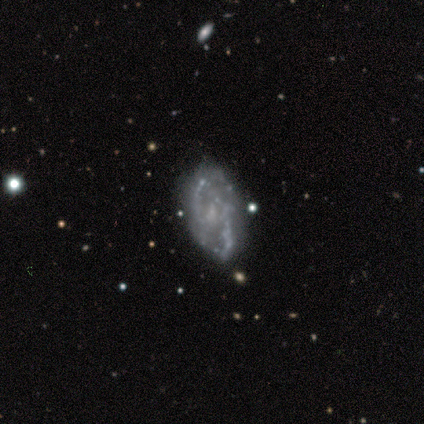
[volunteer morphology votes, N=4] smooth-or-featured: featured or disk: 100% | smooth: 0% | star or artifact: 0%
  disk-edge-on: no: 100% | yes: 0%
    bar: weak: 50% (tied) | no: 50% (tied) | strong: 0%
    has-spiral-arms: yes: 100% | no: 0%
      spiral-winding: medium: 75% | tight: 25% | loose: 0%
      spiral-arm-count: 2: 100% | 1: 0% | 3: 0% | 4: 0% | more than 4: 0% | can't tell: 0%
    bulge-size: none: 50% | moderate: 25% | small: 25% | dominant: 0% | large: 0%
  merging: none: 75% | merger: 25% | minor disturbance: 0% | major disturbance: 0%